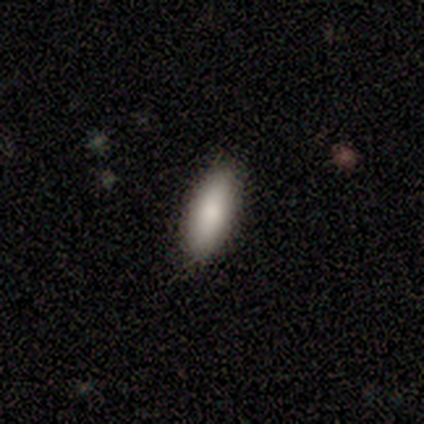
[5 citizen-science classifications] A smooth galaxy with no disk features (100%) that is in between round and cigar-shaped (100%).

Vote fractions:
- Smooth or featured? smooth: 100% / featured or disk: 0% / star or artifact: 0%
- How rounded? in between: 100% / round: 0% / cigar-shaped: 0%
- Merging? none: 100% / minor disturbance: 0% / major disturbance: 0% / merger: 0%